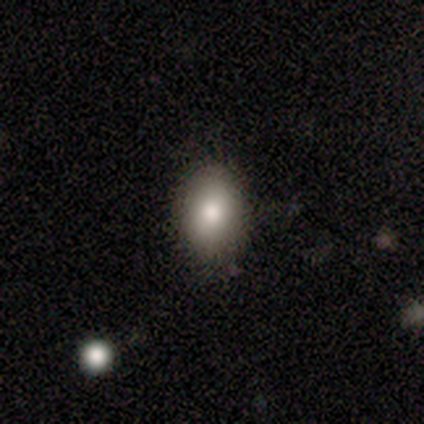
Smooth or featured?
  - smooth: 82% *
  - featured or disk: 10%
  - star or artifact: 8%
How rounded?
  - in between: 78% *
  - round: 22%
  - cigar-shaped: 0%
Merging?
  - none: 86% *
  - minor disturbance: 11%
  - merger: 3%
  - major disturbance: 0%